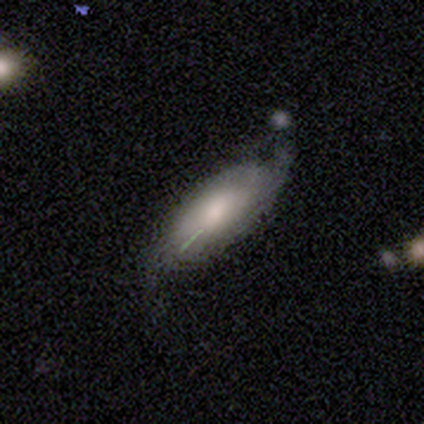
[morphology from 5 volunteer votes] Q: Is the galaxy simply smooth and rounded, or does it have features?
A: smooth — 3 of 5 (60%).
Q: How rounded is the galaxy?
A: in between — 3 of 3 (100%).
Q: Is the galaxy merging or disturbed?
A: minor disturbance — 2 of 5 (40%, tied with major disturbance).